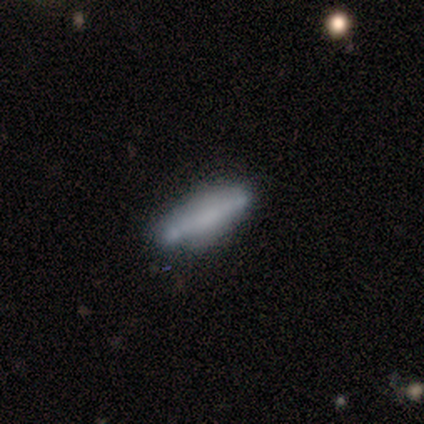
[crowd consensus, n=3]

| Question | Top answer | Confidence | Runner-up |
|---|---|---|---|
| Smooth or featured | smooth | 100% | — |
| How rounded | cigar-shaped | 67% | in between (33%) |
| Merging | none | 67% | minor disturbance (33%) |